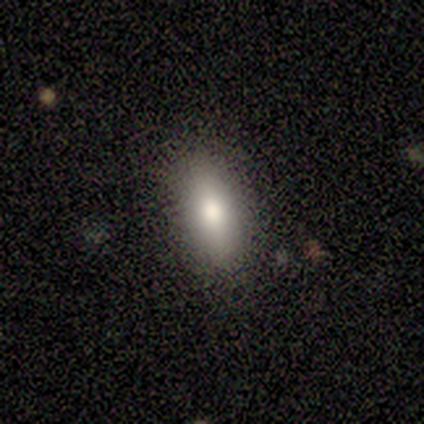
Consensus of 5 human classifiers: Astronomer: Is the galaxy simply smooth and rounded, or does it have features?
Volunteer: smooth — 80%.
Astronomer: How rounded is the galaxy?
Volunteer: in between — 75%.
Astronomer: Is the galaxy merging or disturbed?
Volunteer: none — 100%.